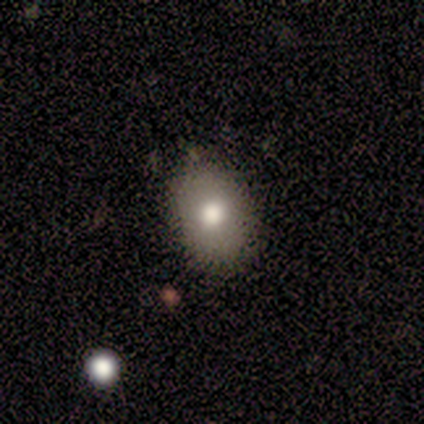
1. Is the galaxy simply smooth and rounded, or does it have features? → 62% smooth, 25% featured or disk, 12% star or artifact.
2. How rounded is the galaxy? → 100% in between, 0% round, 0% cigar-shaped.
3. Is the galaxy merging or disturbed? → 86% none, 14% minor disturbance, 0% major disturbance, 0% merger.